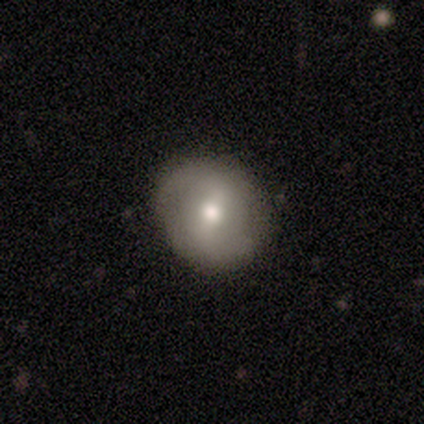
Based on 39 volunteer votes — Morphology: type=featured or disk (54%); edge-on=no (95%); bar=strong (40%, tied with weak); spiral arms=yes (65%); winding=loose (69%); arm count=2 (100%); bulge=moderate (60%); merging=none (80%).